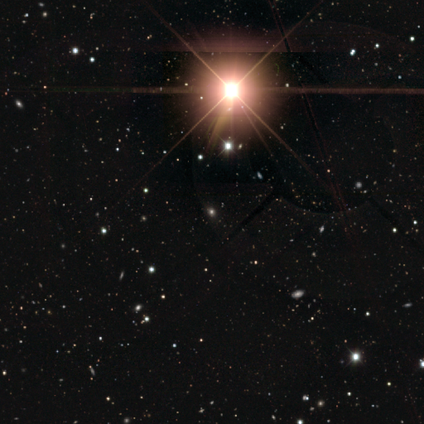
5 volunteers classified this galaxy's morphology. A star or artifact, not a galaxy (80%).

Vote fractions:
- Smooth or featured? star or artifact: 80% / smooth: 20% / featured or disk: 0%